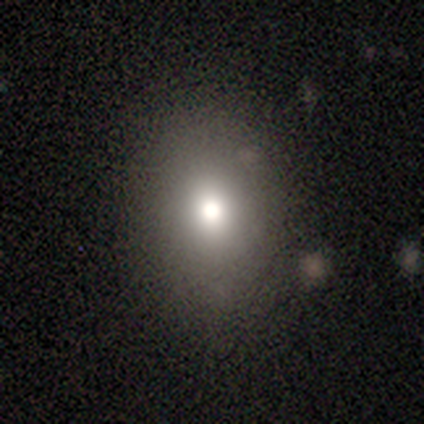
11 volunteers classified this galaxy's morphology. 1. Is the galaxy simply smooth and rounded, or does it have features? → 82% smooth, 18% featured or disk, 0% star or artifact.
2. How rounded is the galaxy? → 67% in between, 33% round, 0% cigar-shaped.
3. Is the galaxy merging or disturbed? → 91% none, 9% minor disturbance, 0% major disturbance, 0% merger.